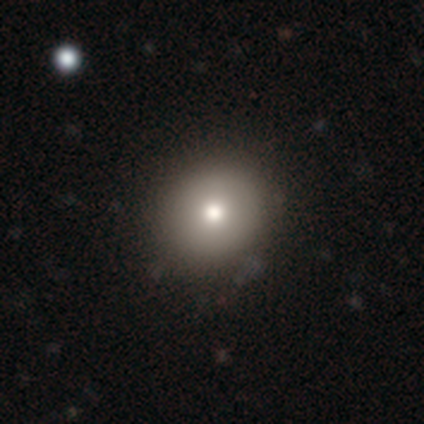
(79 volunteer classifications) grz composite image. It shows a smooth galaxy with no disk features (81%) that is round (84%). Merging: none (44%).